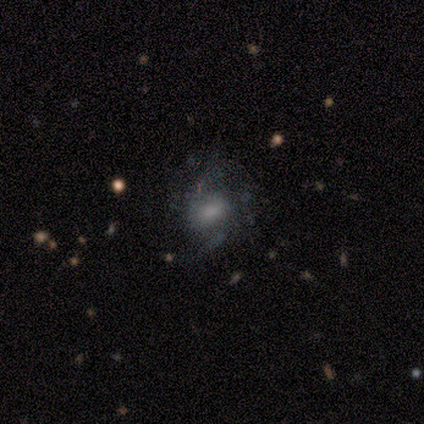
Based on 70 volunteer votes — Q: Smooth or featured?
A: featured or disk (56%); runner-up: smooth (36%)
Q: Edge-on disk?
A: no (97%); runner-up: yes (3%)
Q: Bar?
A: no (50%); runner-up: weak (47%)
Q: Spiral arms?
A: yes (74%); runner-up: no (26%)
Q: Spiral winding?
A: loose (54%); runner-up: medium (36%)
Q: Spiral arm count?
A: 2 (46%); runner-up: can't tell (39%)
Q: Bulge size?
A: none (37%); runner-up: moderate (29%)
Q: Merging?
A: none (59%); runner-up: minor disturbance (20%)